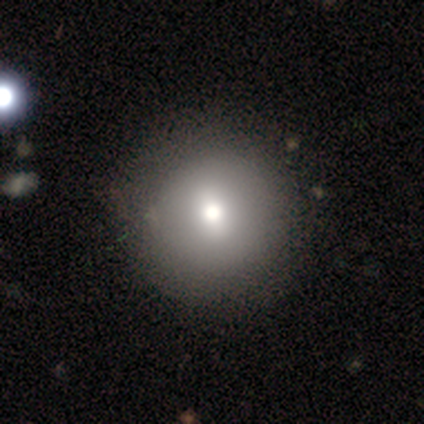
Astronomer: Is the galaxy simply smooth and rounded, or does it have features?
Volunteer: smooth — 78%.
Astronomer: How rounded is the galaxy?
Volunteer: round — 97%.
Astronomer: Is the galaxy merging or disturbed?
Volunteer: none — 63%.